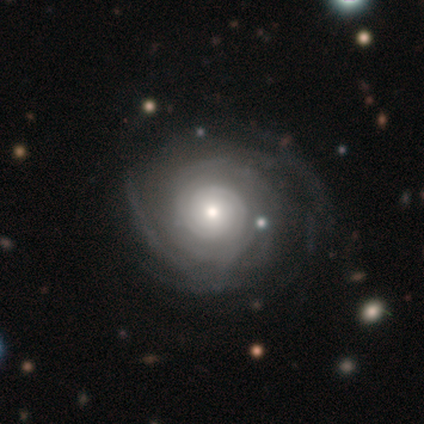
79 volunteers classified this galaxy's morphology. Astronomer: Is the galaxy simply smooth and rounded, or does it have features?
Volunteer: featured or disk — 92%.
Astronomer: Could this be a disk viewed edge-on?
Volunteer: no — 99%.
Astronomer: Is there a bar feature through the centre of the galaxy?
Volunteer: no — 82%.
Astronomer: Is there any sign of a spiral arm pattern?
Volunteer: yes — 90%.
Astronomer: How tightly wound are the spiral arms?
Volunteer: tight — 72%.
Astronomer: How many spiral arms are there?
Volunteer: can't tell — 55%.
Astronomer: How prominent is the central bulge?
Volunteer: moderate — 40%, tied with small at 40%.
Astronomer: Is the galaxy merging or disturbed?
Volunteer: none — 40%.